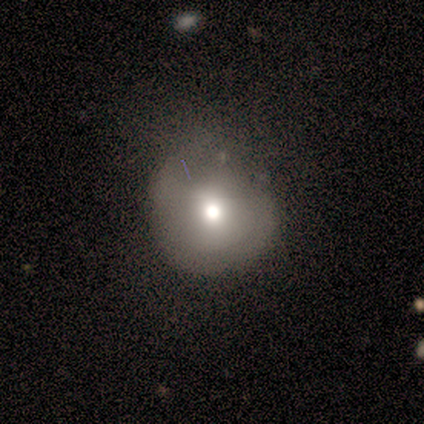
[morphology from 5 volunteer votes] This is likely a smooth galaxy (60%). How rounded: clearly round (100%). Merging: possibly none (50%).